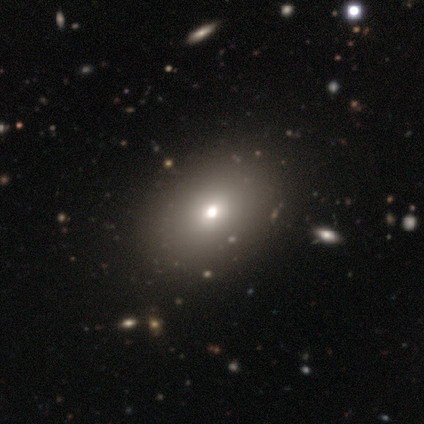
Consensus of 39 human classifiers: This is likely a smooth galaxy (79%). How rounded: likely in between (71%). Merging: likely none (61%).